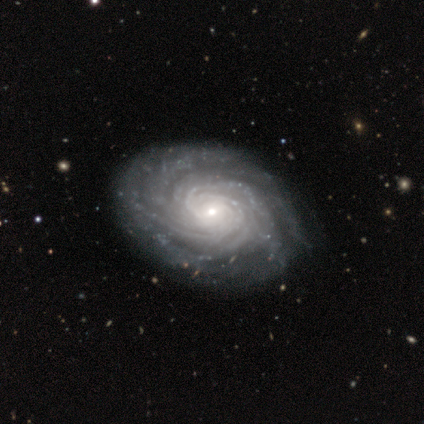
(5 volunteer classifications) featured or disk 80%, star or artifact 20%, smooth 0%. Down the decision tree: edge-on disk — no (100%); bar — weak (75%); spiral arms — yes (100%); spiral arm count — can't tell (50%); spiral winding — tight (100%); bulge size — small (75%); merging — none (100%).